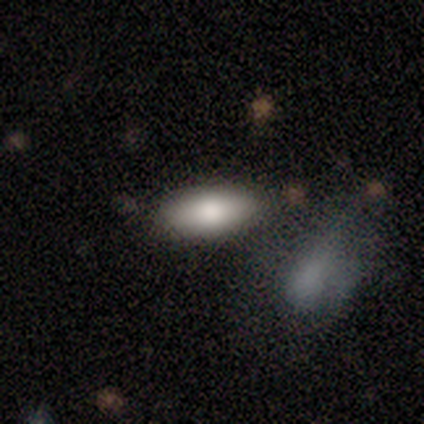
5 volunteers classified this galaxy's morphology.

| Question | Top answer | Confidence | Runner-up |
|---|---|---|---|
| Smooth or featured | smooth | 60% | featured or disk (40%) |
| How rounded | in between | 100% | — |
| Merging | none | 80% | merger (20%) |